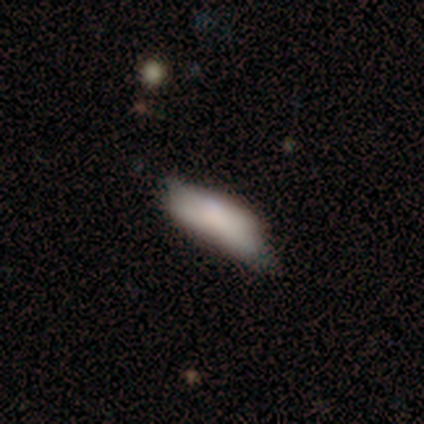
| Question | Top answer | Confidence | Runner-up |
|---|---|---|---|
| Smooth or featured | smooth | 75% | featured or disk (25%) |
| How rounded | in between | 100% | — |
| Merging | none | 50% | tied: minor disturbance (50%) |